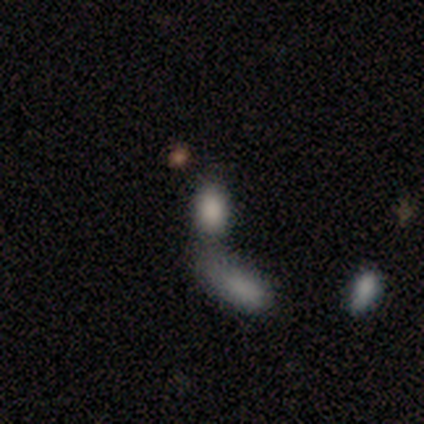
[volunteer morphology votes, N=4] A smooth galaxy with no disk features (75%) that is in between round and cigar-shaped (100%). Merging: none (33%, tied with major disturbance and merger).